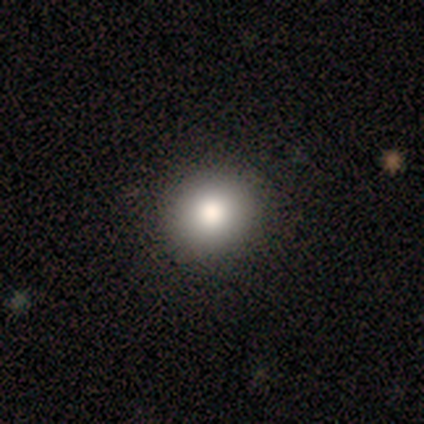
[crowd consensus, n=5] A smooth galaxy with no disk features (60%) that is round (100%). Merging: none (75%).